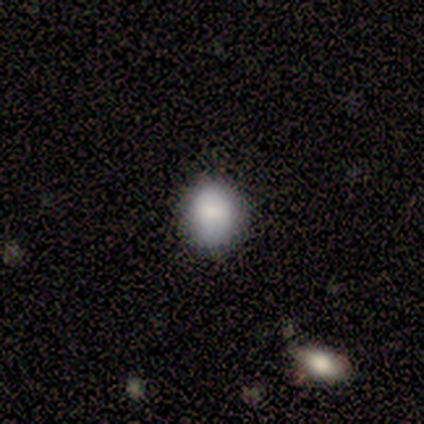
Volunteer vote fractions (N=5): smooth-or-featured: smooth: 80% | star or artifact: 20% | featured or disk: 0%
  how-rounded: round: 50% (tied) | in between: 50% (tied) | cigar-shaped: 0%
  merging: none: 75% | minor disturbance: 25% | major disturbance: 0% | merger: 0%